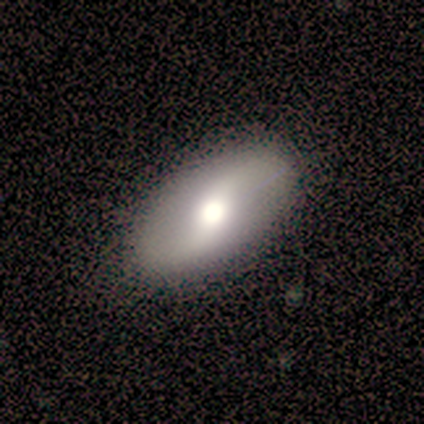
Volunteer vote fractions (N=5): Morphology: type=featured or disk (100%); edge-on=no (100%); bar=no (60%); spiral arms=yes (80%); winding=loose (100%); arm count=2 (100%); bulge=large (60%); merging=none (100%).